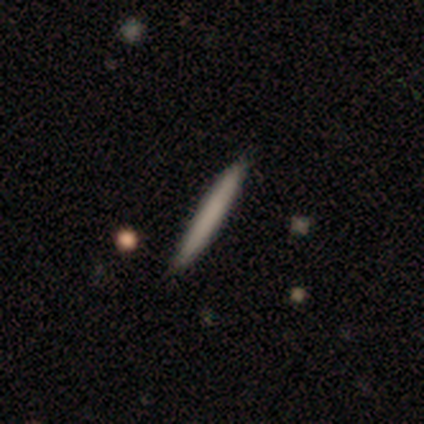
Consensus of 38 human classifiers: smooth_or_featured: smooth (p=0.61) [alt: featured or disk p=0.34]
how_rounded: cigar-shaped (p=1.00)
merging: none (p=0.86) [alt: minor disturbance p=0.11]